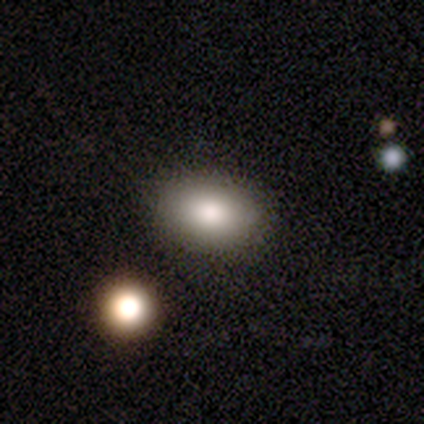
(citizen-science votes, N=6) Morphology: type=smooth (100%); roundness=in between (83%); merging=none (100%).